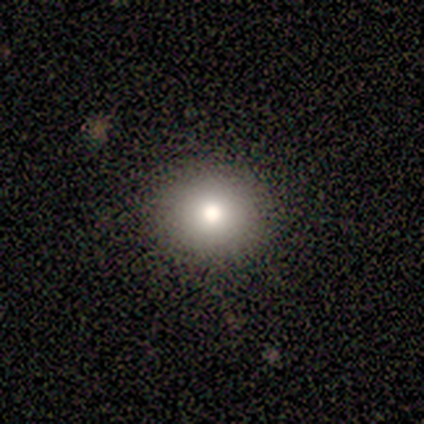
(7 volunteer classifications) Smooth or featured: smooth — 100%
How rounded: round — 86% (in between — 14%)
Merging: none — 100%